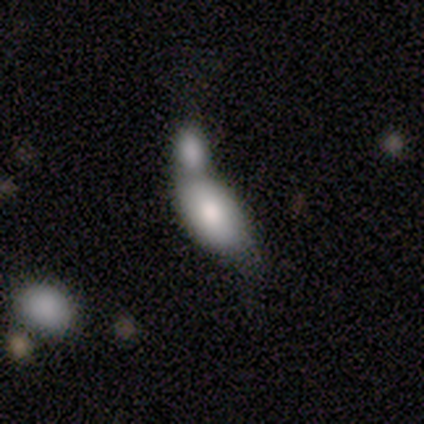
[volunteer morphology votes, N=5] Q: Smooth or featured?
A: smooth (80%); runner-up: featured or disk (20%)
Q: How rounded?
A: in between (100%)
Q: Merging?
A: merger (100%)